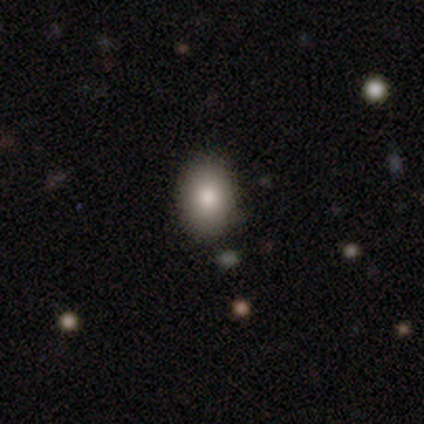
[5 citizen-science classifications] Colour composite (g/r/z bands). It shows a smooth galaxy with no disk features (100%) that is in between round and cigar-shaped (100%). Merging: none (80%).